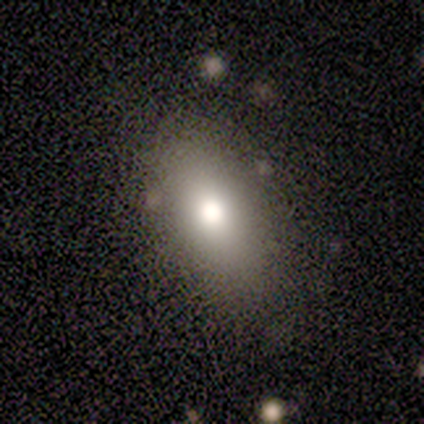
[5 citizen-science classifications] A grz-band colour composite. It shows a smooth galaxy with no disk features (80%) that is in between round and cigar-shaped (75%). Merging: none (75%).